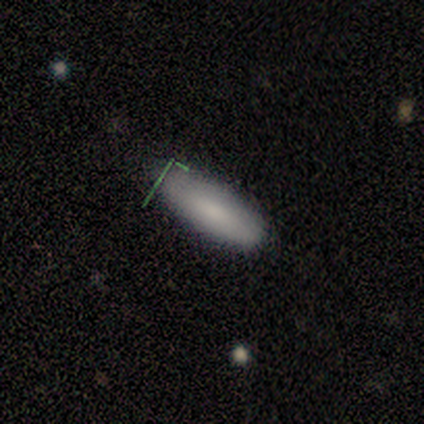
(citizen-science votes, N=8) Smooth or featured?
  - smooth: 88% *
  - featured or disk: 12%
  - star or artifact: 0%
How rounded?
  - in between: 86% *
  - cigar-shaped: 14%
  - round: 0%
Merging?
  - none: 88% *
  - minor disturbance: 12%
  - major disturbance: 0%
  - merger: 0%